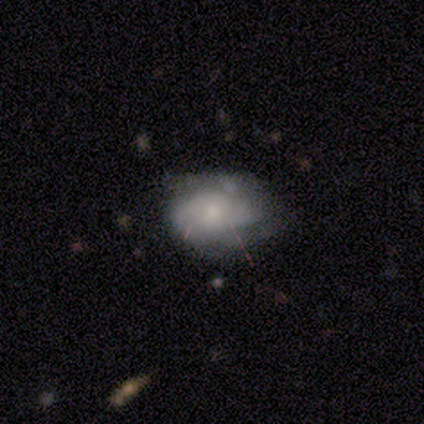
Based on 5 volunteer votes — smooth-or-featured: smooth: 60% | featured or disk: 40% | star or artifact: 0%
  how-rounded: round: 67% | in between: 33% | cigar-shaped: 0%
  merging: none: 80% | major disturbance: 20% | minor disturbance: 0% | merger: 0%